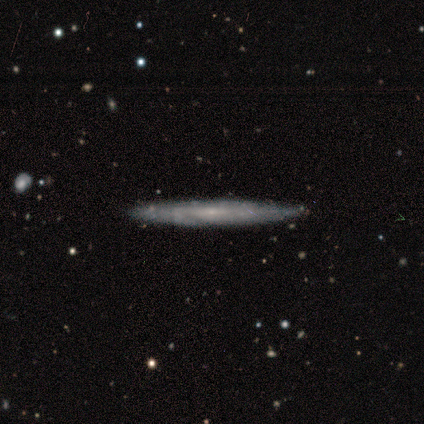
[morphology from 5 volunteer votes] Consensus on every question: smooth or featured — featured or disk (100%); edge-on disk — yes (100%); edge-on bulge — none (100%); merging — none (100%).